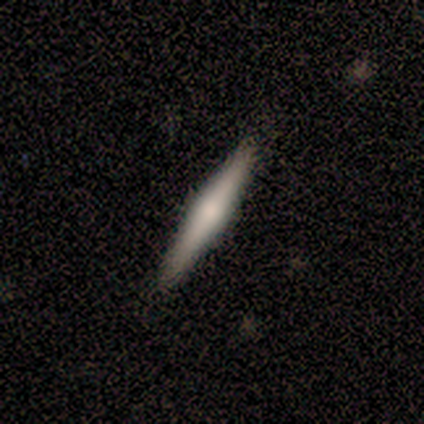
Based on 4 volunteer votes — A featured or disk galaxy (75%) viewed edge-on (100%) with a rounded central bulge (100%).

Vote fractions:
- Smooth or featured? featured or disk: 75% / star or artifact: 25% / smooth: 0%
- Edge-on disk? yes: 100% / no: 0%
- Edge-on bulge? rounded: 100% / boxy: 0% / none: 0%
- Merging? none: 100% / minor disturbance: 0% / major disturbance: 0% / merger: 0%